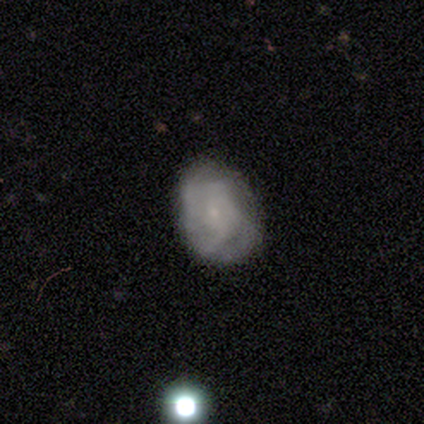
smooth_or_featured: featured or disk (p=0.80) [alt: smooth p=0.20]
disk_edge_on: no (p=1.00)
bar: no (p=0.75) [alt: weak p=0.25]
has_spiral_arms: yes (p=1.00)
spiral_winding: loose (p=0.50) [alt: tight p=0.25]
spiral_arm_count: can't tell (p=0.50) [alt: 3 p=0.25]
bulge_size: small (p=1.00)
merging: none (p=0.60) [alt: minor disturbance p=0.40]